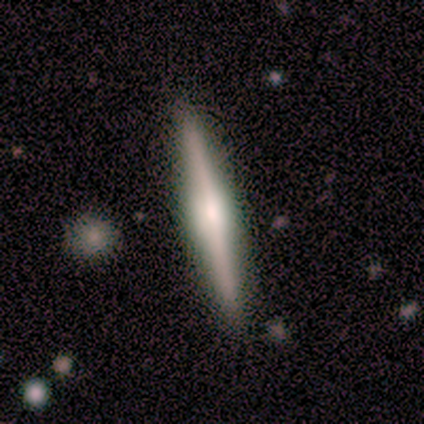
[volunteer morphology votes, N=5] This is clearly a featured or disk galaxy (100%). It is clearly viewed edge-on (100%). Edge-on bulge: likely rounded (60%). Merging: clearly none (100%).